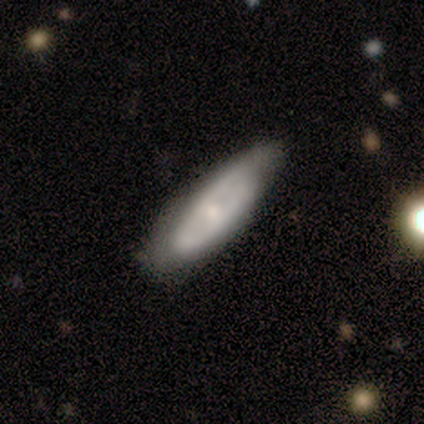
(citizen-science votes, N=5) Smooth or featured? featured or disk (60%)
Edge-on disk? no (67%)
Bar? no (100%)
Spiral arms? no (100%)
Bulge size? moderate (50%, tied with small)
Merging? minor disturbance (80%)